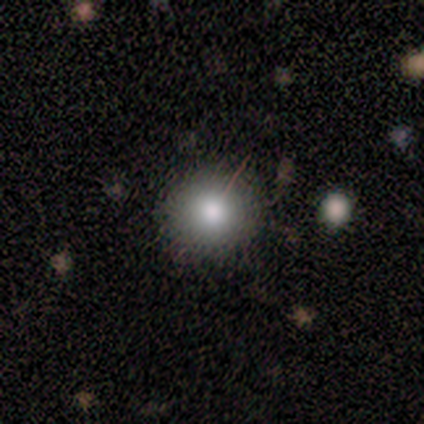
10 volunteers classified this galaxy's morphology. Overall: smooth (90%). How rounded: round (89%). Merging: none (100%).